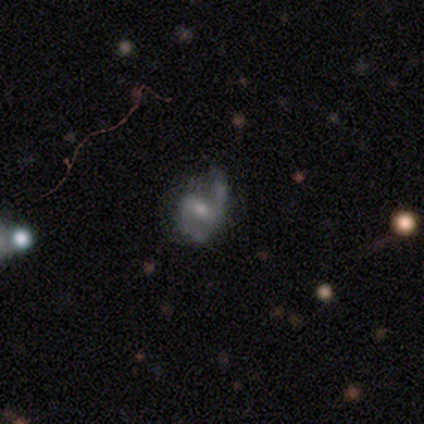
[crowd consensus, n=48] This is likely a featured or disk galaxy (79%). It is clearly not viewed edge-on (95%). Bar: possibly weak (56%). Spiral arm pattern: clearly yes (100%). Spiral arm count: clearly 2 (86%). Spiral winding: possibly loose (47%). Central bulge: possibly small (53%). Merging: possibly none (52%).